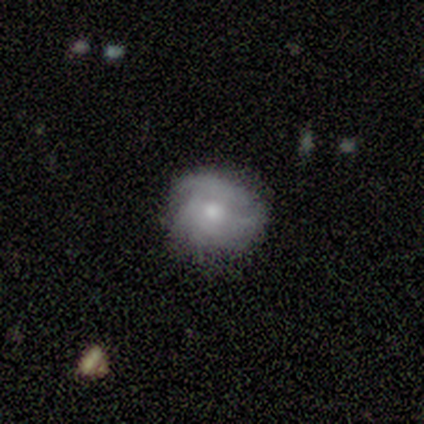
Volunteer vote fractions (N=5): This is marginally a smooth galaxy (40%, tied with featured or disk). How rounded: clearly round (100%). Merging: clearly none (100%).